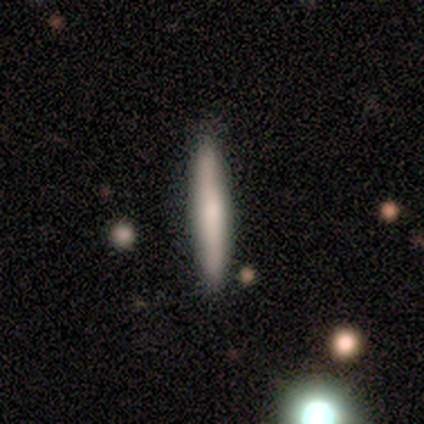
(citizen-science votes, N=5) Smooth or featured?
  - smooth: 80% *
  - featured or disk: 20%
  - star or artifact: 0%
How rounded?
  - cigar-shaped: 100% *
  - round: 0%
  - in between: 0%
Merging?
  - none: 100% *
  - minor disturbance: 0%
  - major disturbance: 0%
  - merger: 0%